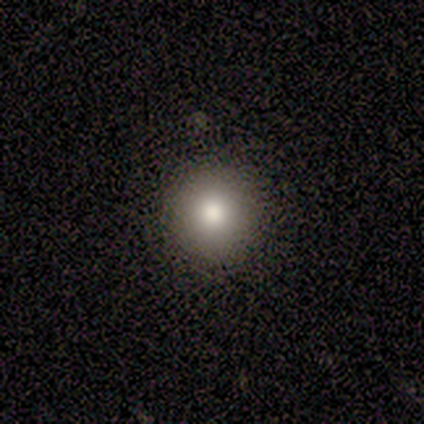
Q: Smooth or featured?
A: smooth (80%); runner-up: featured or disk (20%)
Q: How rounded?
A: round (100%)
Q: Merging?
A: none (80%); runner-up: minor disturbance (20%)